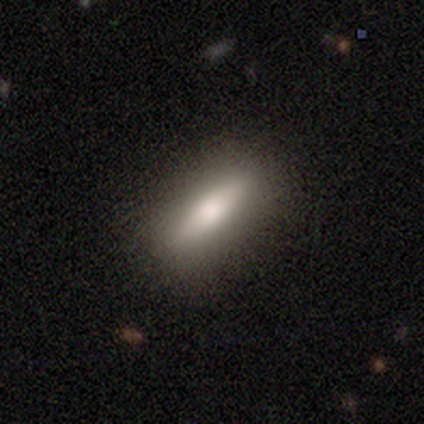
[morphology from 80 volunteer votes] type=smooth (61%); roundness=cigar-shaped (53%); merging=none (43%).